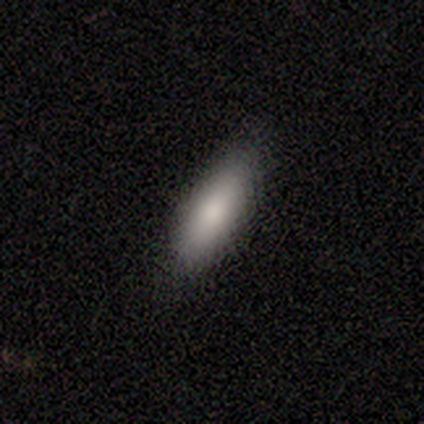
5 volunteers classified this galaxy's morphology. Volunteers were most divided on "how rounded": in between: 75%, cigar-shaped: 25%, round: 0%. More confident: merging — none (100%); smooth or featured — smooth (80%).